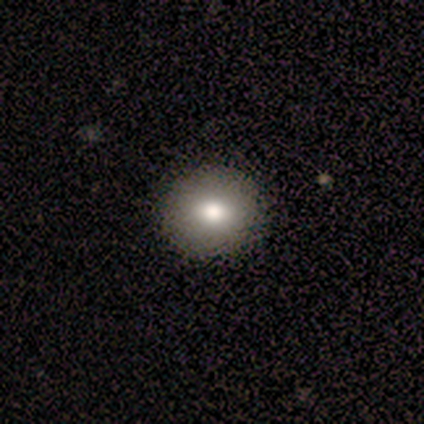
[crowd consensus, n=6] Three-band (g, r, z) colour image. It shows a smooth galaxy with no disk features (67%) that is round (100%). Merging: none (100%).